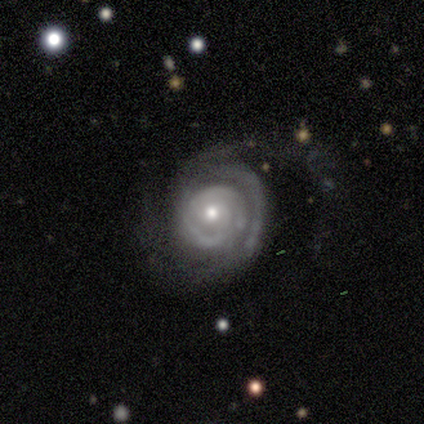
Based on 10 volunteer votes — Morphology: type=featured or disk (100%); edge-on=no (90%); bar=no (89%); spiral arms=yes (100%); winding=tight (67%); arm count=2 (56%); bulge=moderate (56%); merging=none (50%).